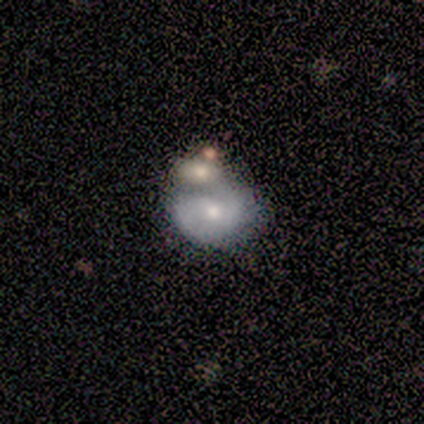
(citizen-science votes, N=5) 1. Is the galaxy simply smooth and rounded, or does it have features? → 60% featured or disk, 40% smooth, 0% star or artifact.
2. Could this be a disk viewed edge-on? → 100% no, 0% yes.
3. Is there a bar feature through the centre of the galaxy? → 67% no, 33% weak, 0% strong.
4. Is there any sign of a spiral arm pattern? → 67% yes, 33% no.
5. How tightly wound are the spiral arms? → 100% medium, 0% tight, 0% loose.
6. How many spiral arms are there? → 100% 2, 0% 1, 0% 3, 0% 4, 0% more than 4, 0% can't tell.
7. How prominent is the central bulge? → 67% small, 33% moderate, 0% dominant, 0% large, 0% none.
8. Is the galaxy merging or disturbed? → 60% merger, 20% none, 20% minor disturbance, 0% major disturbance.